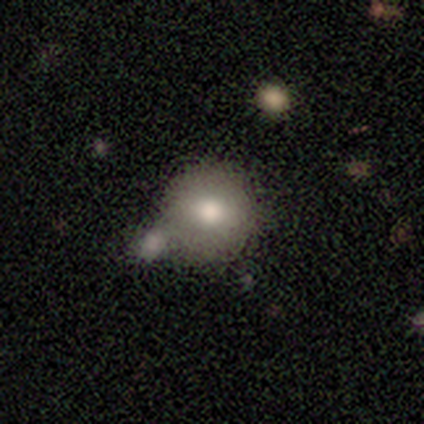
This appears to be a smooth galaxy with no disk features (81%) that is round (96%). Merging: none (50%).